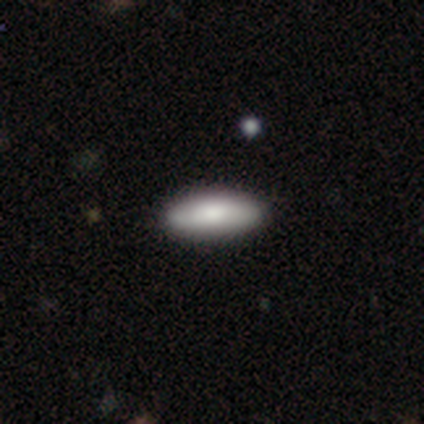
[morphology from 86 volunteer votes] smooth 86%, featured or disk 7%, star or artifact 7%. Down the decision tree: how rounded — in between (66%); merging — none (90%).